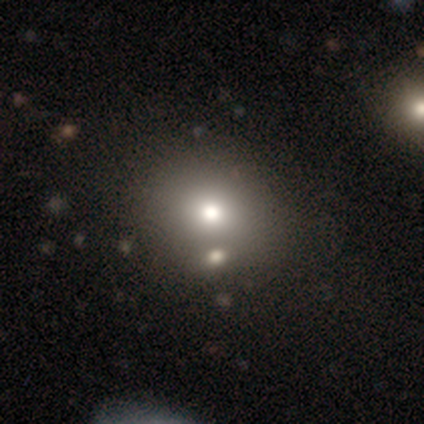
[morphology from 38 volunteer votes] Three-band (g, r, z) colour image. It shows a smooth galaxy with no disk features (79%) that is round (83%). Merging: none (44%).